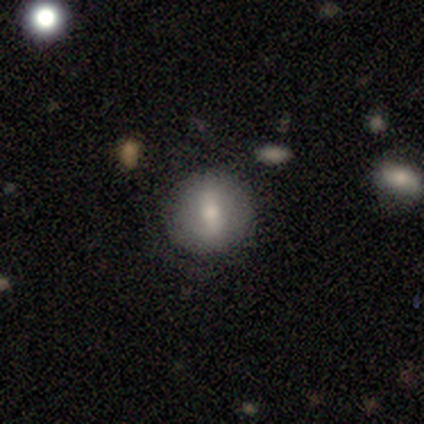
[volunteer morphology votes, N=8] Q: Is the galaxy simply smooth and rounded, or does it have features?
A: smooth — 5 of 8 (62%).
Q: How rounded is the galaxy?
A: round — 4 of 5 (80%).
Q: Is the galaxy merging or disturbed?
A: none — 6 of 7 (86%).